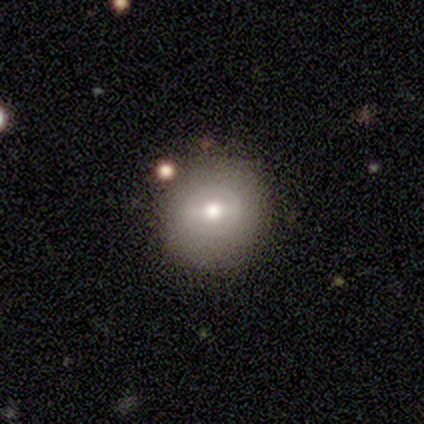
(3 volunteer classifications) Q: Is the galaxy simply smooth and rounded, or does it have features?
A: smooth — 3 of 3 (100%).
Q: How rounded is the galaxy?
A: round — 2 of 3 (67%).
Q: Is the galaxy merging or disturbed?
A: none — 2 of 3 (67%).